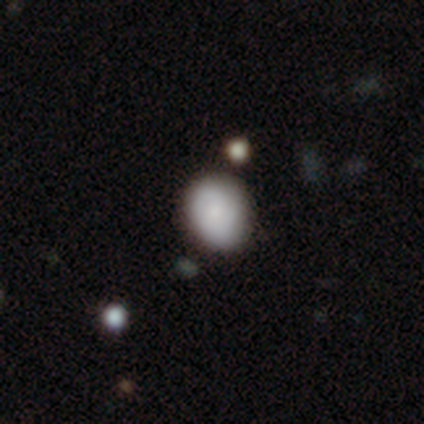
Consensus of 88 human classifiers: Volunteers were most divided on "how rounded": round: 55%, in between: 45%, cigar-shaped: 0%. More confident: smooth or featured — smooth (73%); merging — none (70%).